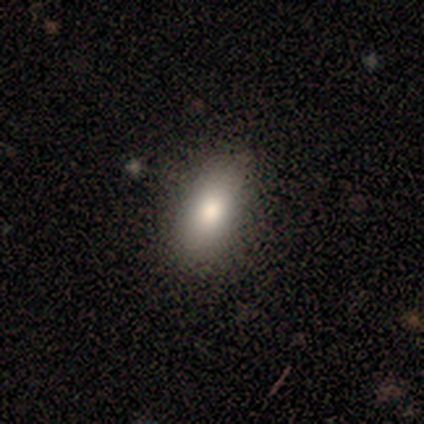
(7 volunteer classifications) Q: Smooth or featured?
A: smooth (100%)
Q: How rounded?
A: in between (100%)
Q: Merging?
A: none (86%); runner-up: minor disturbance (14%)